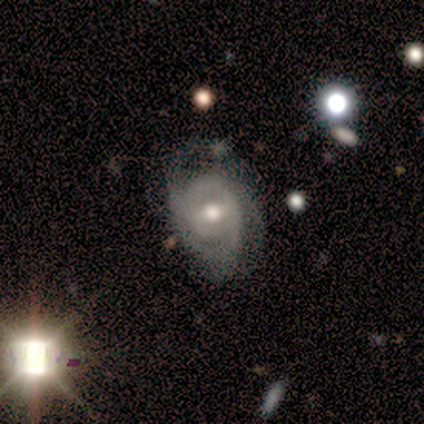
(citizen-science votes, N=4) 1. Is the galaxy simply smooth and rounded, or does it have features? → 75% featured or disk, 25% star or artifact, 0% smooth.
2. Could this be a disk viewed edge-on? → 100% no, 0% yes.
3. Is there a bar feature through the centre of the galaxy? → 67% no, 33% weak, 0% strong.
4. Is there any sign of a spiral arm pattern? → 100% yes, 0% no.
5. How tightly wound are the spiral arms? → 100% tight, 0% medium, 0% loose.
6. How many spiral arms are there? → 33% 2 (tied), 33% 3 (tied), 33% 4 (tied), 0% 1, 0% more than 4, 0% can't tell.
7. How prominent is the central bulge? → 100% moderate, 0% dominant, 0% large, 0% small, 0% none.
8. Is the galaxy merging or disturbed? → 67% none, 33% minor disturbance, 0% major disturbance, 0% merger.